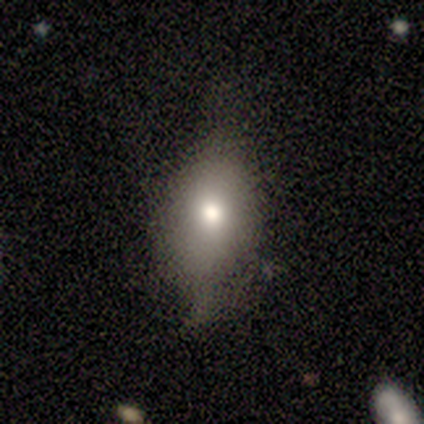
Volunteers were most divided on "smooth or featured": smooth: 60%, featured or disk: 40%, star or artifact: 0%. More confident: how rounded — in between (67%); merging — none (60%).